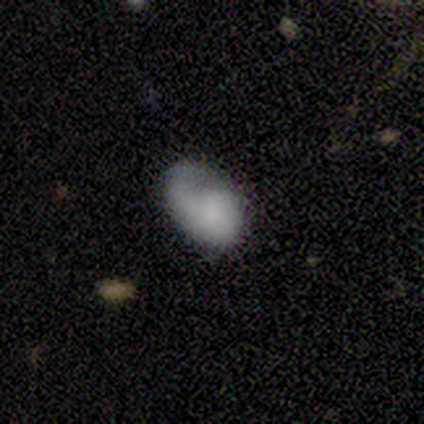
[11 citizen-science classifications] smooth_or_featured: smooth (p=0.45) [tied with: featured or disk p=0.45]
how_rounded: in between (p=1.00)
merging: minor disturbance (p=0.50) [alt: none p=0.40]